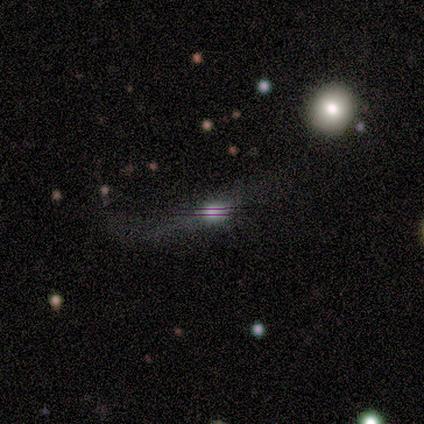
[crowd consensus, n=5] This is marginally a featured or disk galaxy (40%, tied with star or artifact). It is possibly viewed edge-on (50%, tied with no). Edge-on bulge: clearly rounded (100%). Merging: likely major disturbance (67%).